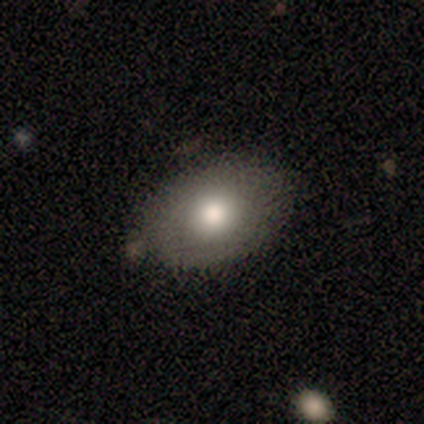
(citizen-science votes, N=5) Q: Smooth or featured?
A: smooth (80%); runner-up: star or artifact (20%)
Q: How rounded?
A: in between (75%); runner-up: round (25%)
Q: Merging?
A: none (75%); runner-up: minor disturbance (25%)